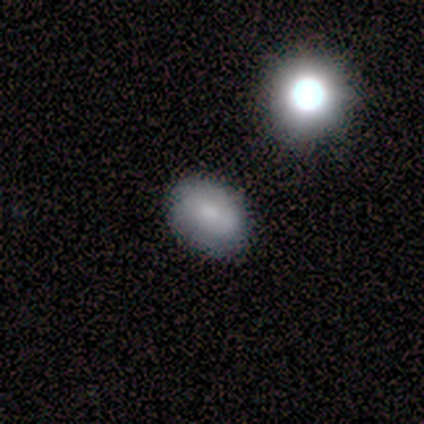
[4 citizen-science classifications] This appears to be a smooth galaxy with no disk features (75%) that is in between round and cigar-shaped (100%). Merging: minor disturbance (67%).